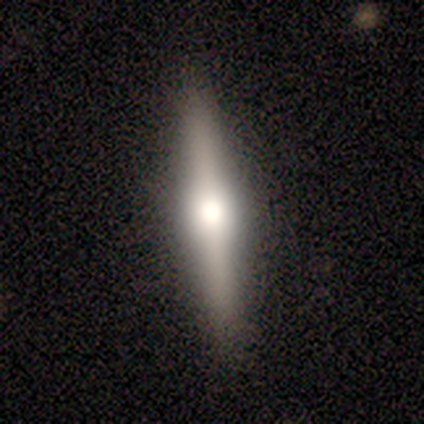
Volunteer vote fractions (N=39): This appears to be a featured or disk galaxy (69%) viewed edge-on (96%) with a rounded central bulge (88%). Merging: none (92%).